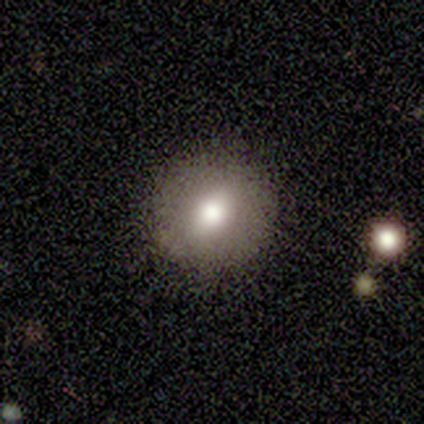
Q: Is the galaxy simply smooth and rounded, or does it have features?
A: smooth — 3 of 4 (75%).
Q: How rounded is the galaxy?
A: round — 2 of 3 (67%).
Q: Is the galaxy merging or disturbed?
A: none — 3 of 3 (100%).